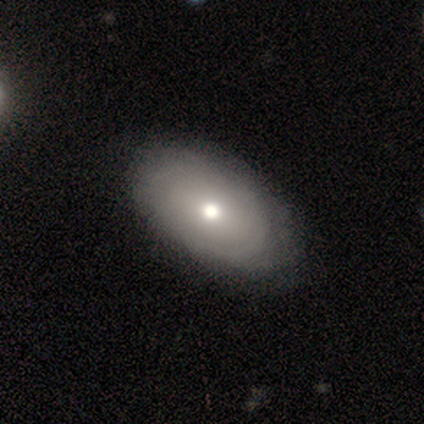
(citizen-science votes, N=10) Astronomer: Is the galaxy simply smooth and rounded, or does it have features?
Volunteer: featured or disk — 70%.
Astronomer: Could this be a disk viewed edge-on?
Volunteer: no — 100%.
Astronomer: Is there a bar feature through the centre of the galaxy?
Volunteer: no — 86%.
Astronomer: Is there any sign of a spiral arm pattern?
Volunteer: no — 100%.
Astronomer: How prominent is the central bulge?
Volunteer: moderate — 86%.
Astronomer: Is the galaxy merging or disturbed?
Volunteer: none — 80%.